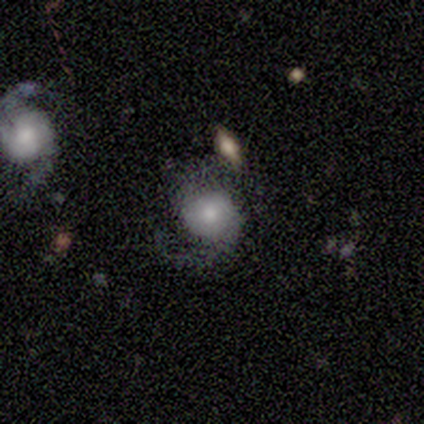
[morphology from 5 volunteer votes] Smooth or featured? 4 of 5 (80%) said featured or disk. Edge-on disk? 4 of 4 (100%) said no. Bar? 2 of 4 (50%, tied with no) said weak. Spiral arms? 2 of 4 (50%, tied with no) said yes. Spiral winding? 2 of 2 (100%) said loose. Spiral arm count? 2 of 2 (100%) said 2. Bulge size? 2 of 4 (50%) said moderate. Merging? 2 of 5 (40%, tied with minor disturbance) said none.